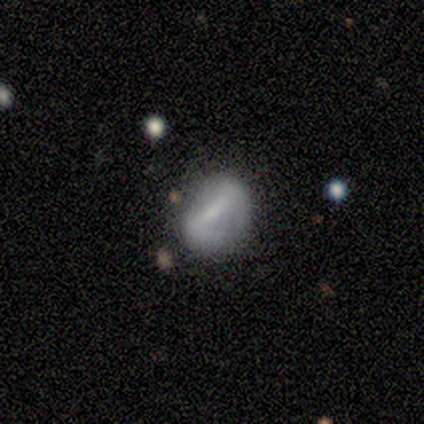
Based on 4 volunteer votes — A featured or disk galaxy (75%) with a strong bar (50%, tied with weak), 1 (100%) loose (100%) spiral arms (50%, tied with no) and a small central bulge (50%, tied with none). Merging: none (50%, tied with minor disturbance).